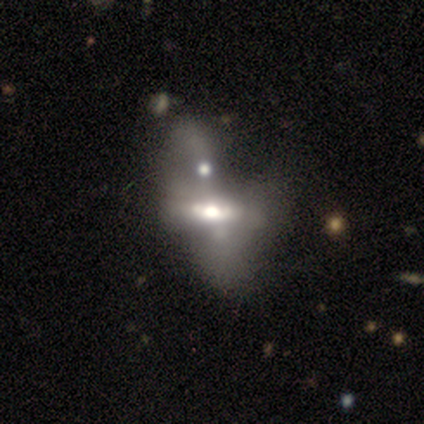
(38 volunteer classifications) featured or disk 58%, smooth 32%, star or artifact 11%. Down the decision tree: edge-on disk — yes (50%, tied with no); edge-on bulge — rounded (64%); merging — merger (62%).